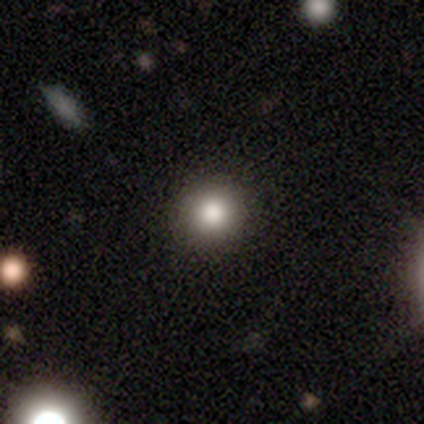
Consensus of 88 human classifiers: Smooth or featured? smooth (81%)
How rounded? round (97%)
Merging? none (91%)